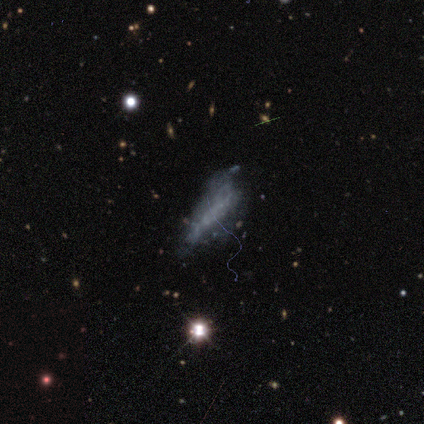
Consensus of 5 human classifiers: Q: Smooth or featured?
A: smooth (40%); tied with: featured or disk (40%)
Q: How rounded?
A: in between (100%)
Q: Merging?
A: major disturbance (50%); runner-up: none (25%)